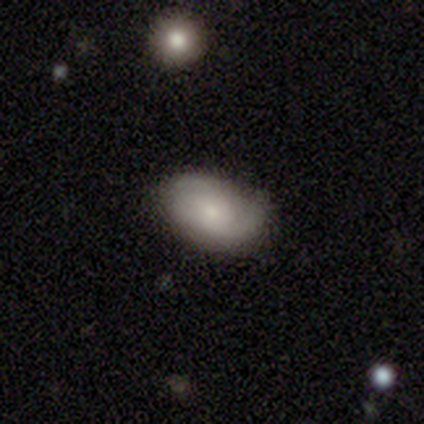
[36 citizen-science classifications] Smooth or featured? 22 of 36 (61%) said smooth. How rounded? 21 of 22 (95%) said in between. Merging? 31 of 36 (86%) said none.